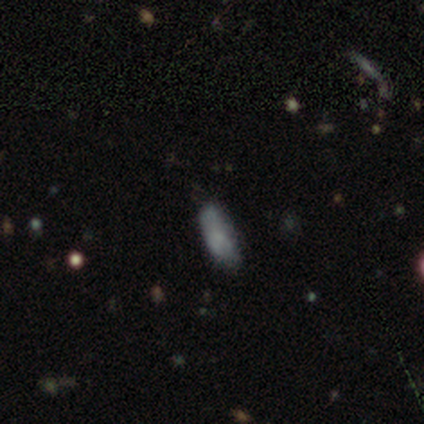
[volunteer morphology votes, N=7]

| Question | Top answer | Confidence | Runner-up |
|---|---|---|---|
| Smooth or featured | smooth | 71% | star or artifact (29%) |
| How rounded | in between | 80% | cigar-shaped (20%) |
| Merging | minor disturbance | 80% | none (20%) |